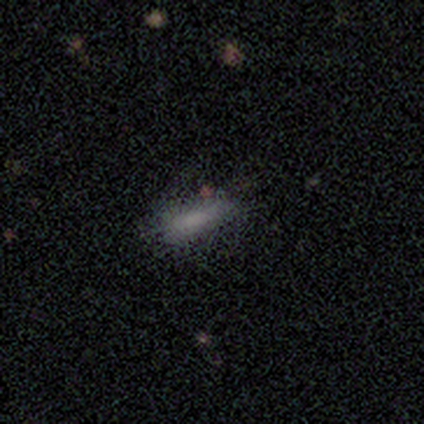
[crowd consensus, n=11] Smooth or featured?
  - smooth: 73% *
  - featured or disk: 27%
  - star or artifact: 0%
How rounded?
  - in between: 50% * (tied)
  - cigar-shaped: 50% * (tied)
  - round: 0%
Merging?
  - none: 73% *
  - minor disturbance: 27%
  - major disturbance: 0%
  - merger: 0%